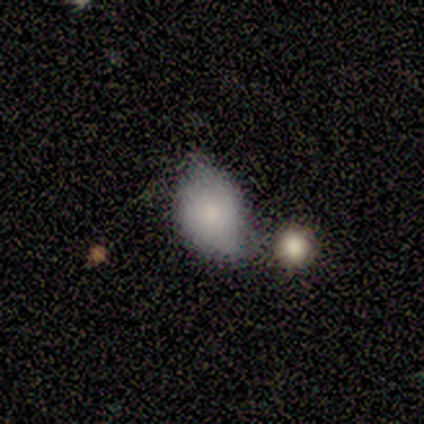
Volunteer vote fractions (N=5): Morphology: type=smooth (80%); roundness=round (75%); merging=minor disturbance (60%).